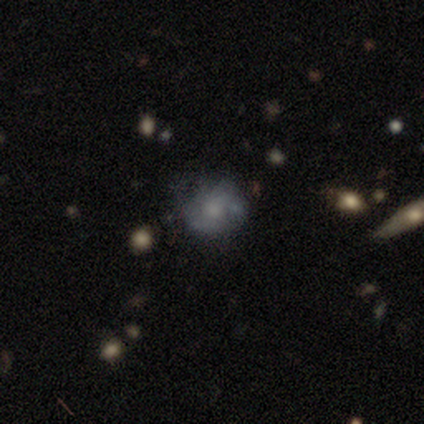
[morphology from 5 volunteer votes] Q: Smooth or featured?
A: smooth (60%); runner-up: featured or disk (20%)
Q: How rounded?
A: round (67%); runner-up: in between (33%)
Q: Merging?
A: none (75%); runner-up: minor disturbance (25%)